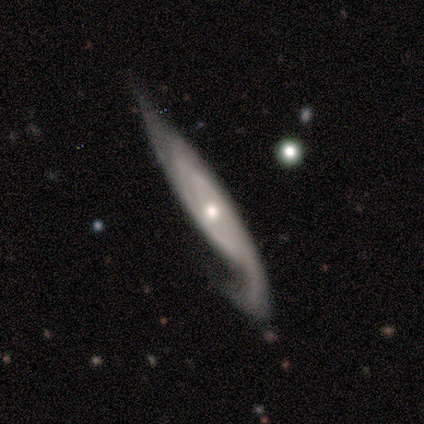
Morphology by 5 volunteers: type=featured or disk (100%); edge-on=no (100%); bar=no (60%); spiral arms=yes (100%); winding=loose (60%); arm count=2 (80%); bulge=small (100%); merging=minor disturbance (80%).